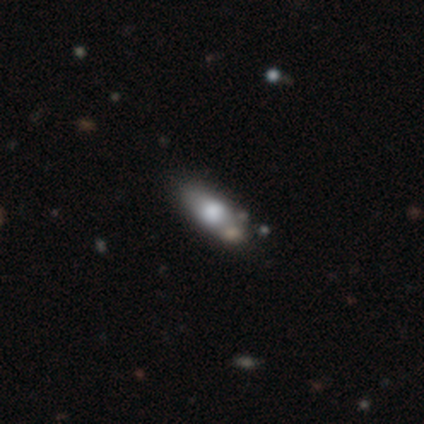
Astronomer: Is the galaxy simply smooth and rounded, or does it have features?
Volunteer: smooth — 63%.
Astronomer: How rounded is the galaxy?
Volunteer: in between — 61%.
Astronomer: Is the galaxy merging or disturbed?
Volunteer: none — 78%.